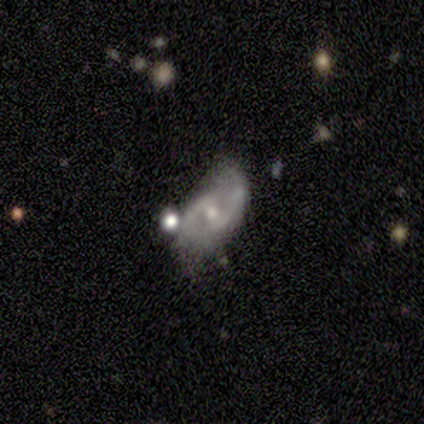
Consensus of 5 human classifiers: Smooth or featured? featured or disk (80%)
Edge-on disk? no (100%)
Bar? weak (50%, tied with no)
Spiral arms? yes (75%)
Spiral winding? medium (67%)
Spiral arm count? 2 (100%)
Bulge size? moderate (50%, tied with small)
Merging? none (60%)